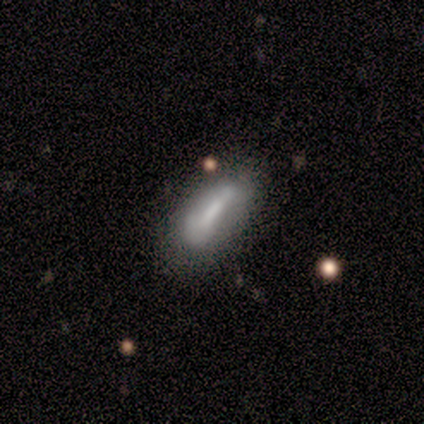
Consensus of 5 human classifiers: Smooth or featured? featured or disk (80%)
Edge-on disk? yes (50%, tied with no)
Edge-on bulge? boxy (50%, tied with none)
Merging? none (60%)